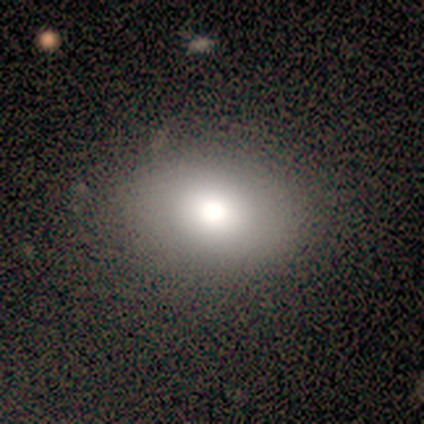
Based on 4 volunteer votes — smooth_or_featured: smooth (p=1.00)
how_rounded: round (p=0.50) [tied with: in between p=0.50]
merging: none (p=1.00)